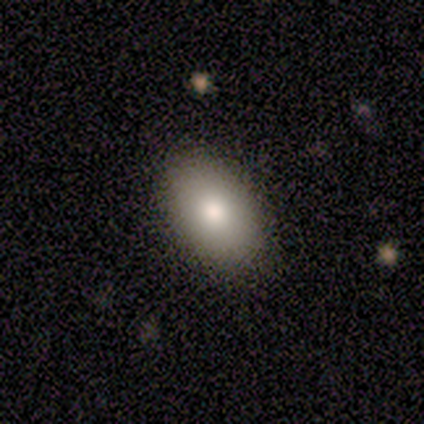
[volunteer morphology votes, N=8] smooth 88%, featured or disk 12%, star or artifact 0%. Down the decision tree: how rounded — in between (71%); merging — none (75%).